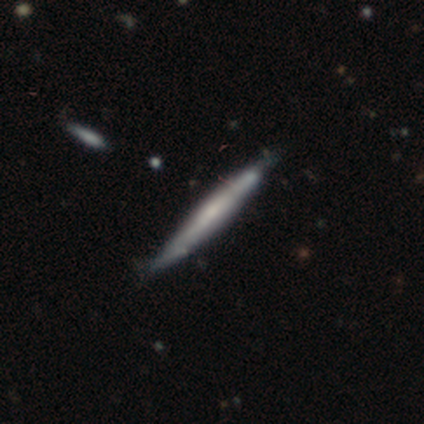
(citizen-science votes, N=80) Smooth or featured?
  - featured or disk: 50% *
  - smooth: 45%
  - star or artifact: 5%
Edge-on disk?
  - yes: 92% *
  - no: 8%
Edge-on bulge?
  - none: 62% *
  - rounded: 24%
  - boxy: 14%
Merging?
  - none: 42% *
  - minor disturbance: 7%
  - major disturbance: 3%
  - merger: 0%